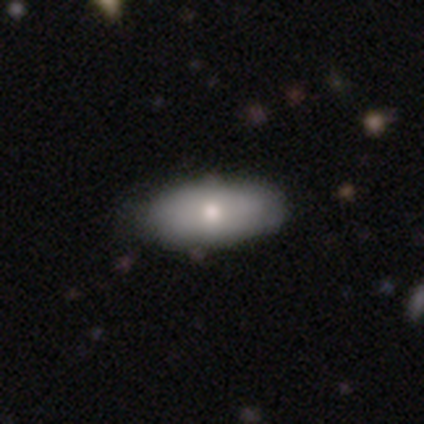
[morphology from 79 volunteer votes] Smooth or featured: smooth — 72% (featured or disk — 19%)
How rounded: in between — 93% (cigar-shaped — 5%)
Merging: none — 46% (minor disturbance — 3%)